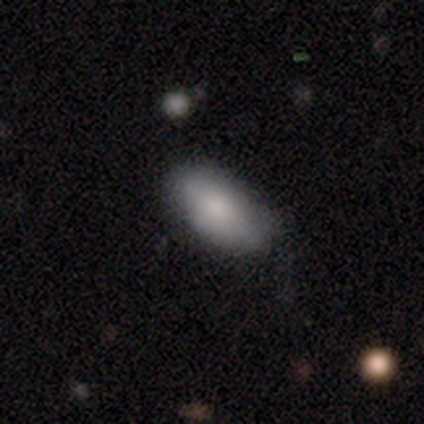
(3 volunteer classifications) A smooth galaxy with no disk features (67%) that is in between round and cigar-shaped (100%).

Vote fractions:
- Smooth or featured? smooth: 67% / star or artifact: 33% / featured or disk: 0%
- How rounded? in between: 100% / round: 0% / cigar-shaped: 0%
- Merging? none: 100% / minor disturbance: 0% / major disturbance: 0% / merger: 0%